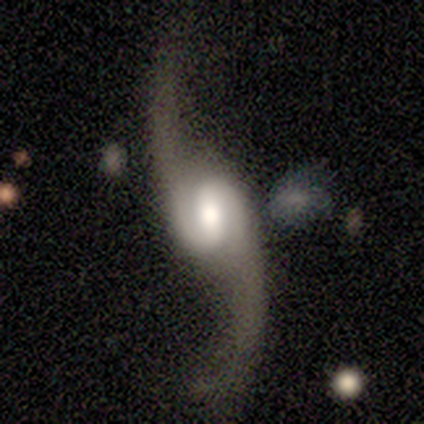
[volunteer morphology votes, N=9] Smooth or featured: featured or disk — 100%
Edge-on disk: no — 100%
Bar: no — 44% (weak — 33%)
Spiral arms: yes — 100%
Spiral winding: loose — 100%
Spiral arm count: 2 — 100%
Bulge size: moderate — 56% (large — 44%)
Merging: none — 100%